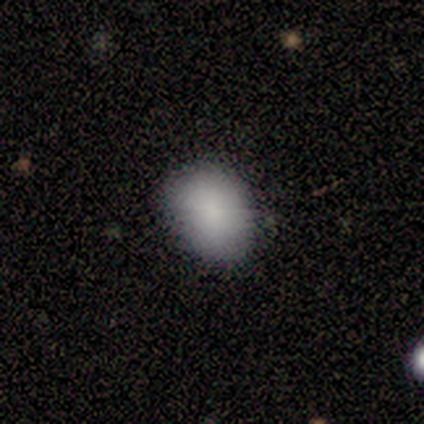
This is clearly a smooth galaxy (86%). How rounded: clearly in between (83%). Merging: clearly none (100%).